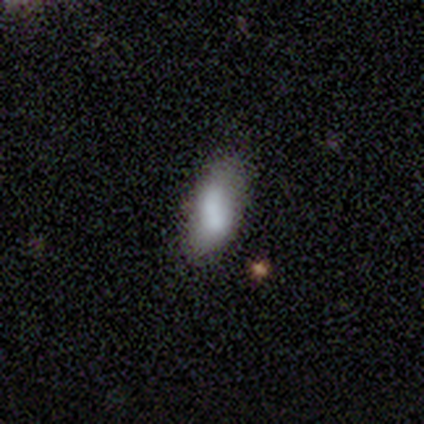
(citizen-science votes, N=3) Smooth or featured: smooth — 100%
How rounded: in between — 67% (cigar-shaped — 33%)
Merging: minor disturbance — 67% (none — 33%)